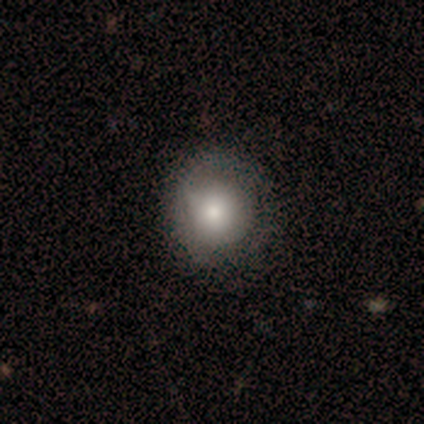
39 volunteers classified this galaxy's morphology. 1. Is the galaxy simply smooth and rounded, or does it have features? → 56% smooth, 36% featured or disk, 8% star or artifact.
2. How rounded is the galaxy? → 86% round, 9% in between, 5% cigar-shaped.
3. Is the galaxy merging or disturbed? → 67% none, 28% minor disturbance, 6% major disturbance, 0% merger.